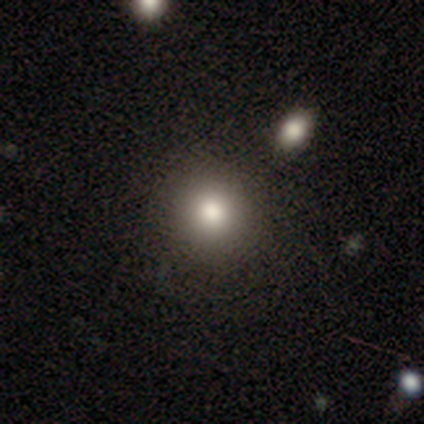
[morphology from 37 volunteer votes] Smooth or featured: smooth — 84% (featured or disk — 8%)
How rounded: round — 94% (in between — 6%)
Merging: none — 94% (merger — 6%)